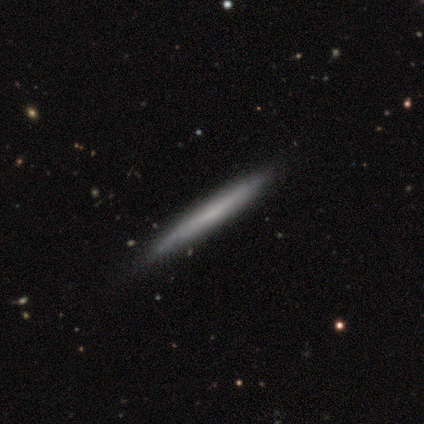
Smooth or featured?
  - featured or disk: 67% *
  - smooth: 33%
  - star or artifact: 0%
Edge-on disk?
  - yes: 100% *
  - no: 0%
Edge-on bulge?
  - none: 100% *
  - boxy: 0%
  - rounded: 0%
Merging?
  - none: 100% *
  - minor disturbance: 0%
  - major disturbance: 0%
  - merger: 0%